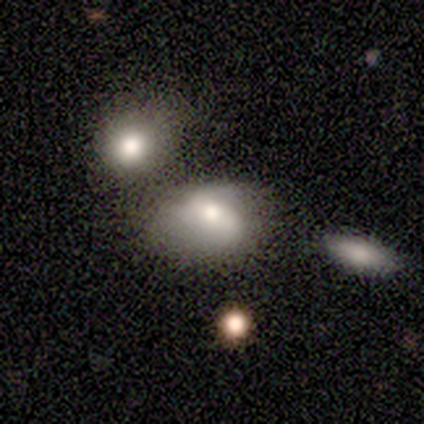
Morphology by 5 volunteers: Smooth or featured: smooth — 80% (featured or disk — 20%)
How rounded: in between — 75% (round — 25%)
Merging: none — 60% (minor disturbance — 20%)